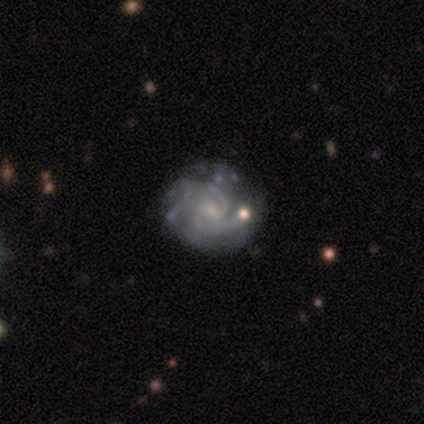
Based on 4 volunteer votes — Smooth or featured? 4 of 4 (100%) said featured or disk. Edge-on disk? 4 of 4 (100%) said no. Bar? 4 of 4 (100%) said no. Spiral arms? 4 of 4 (100%) said yes. Spiral winding? 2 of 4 (50%, tied with medium) said tight. Spiral arm count? 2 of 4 (50%, tied with can't tell) said 3. Bulge size? 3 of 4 (75%) said small. Merging? 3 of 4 (75%) said none.